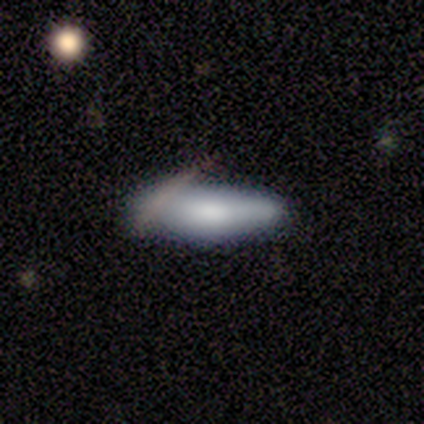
A smooth galaxy with no disk features (80%) that is in between round and cigar-shaped (75%).

Vote fractions:
- Smooth or featured? smooth: 80% / featured or disk: 20% / star or artifact: 0%
- How rounded? in between: 75% / cigar-shaped: 25% / round: 0%
- Merging? minor disturbance: 40% (tied) / major disturbance: 40% (tied) / none: 20% / merger: 0%